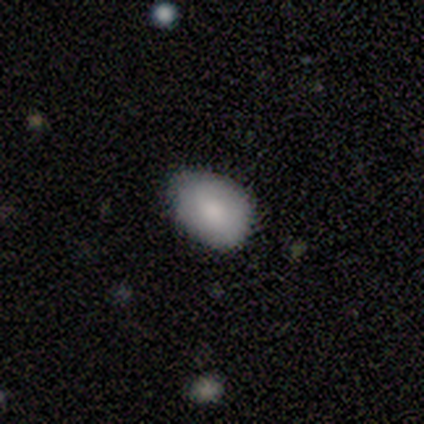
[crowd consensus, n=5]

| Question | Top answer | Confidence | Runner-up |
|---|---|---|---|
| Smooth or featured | smooth | 80% | featured or disk (20%) |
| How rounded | in between | 100% | — |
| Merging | none | 80% | minor disturbance (20%) |